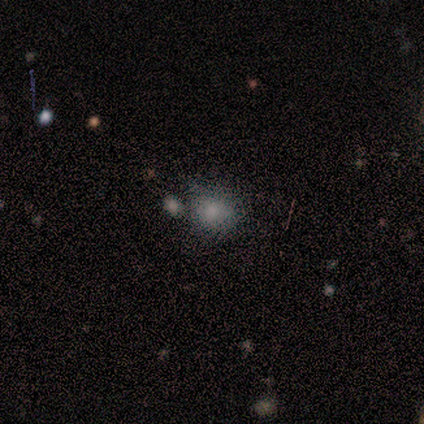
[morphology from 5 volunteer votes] This is clearly a smooth galaxy (80%). How rounded: possibly round (50%, tied with in between). Merging: likely none (75%).